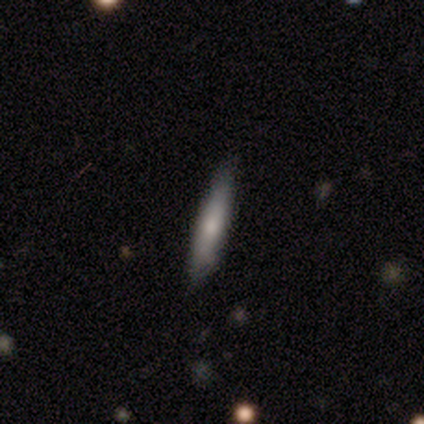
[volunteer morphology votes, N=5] A smooth galaxy with no disk features (60%) that is cigar-shaped (100%). Merging: none (80%).